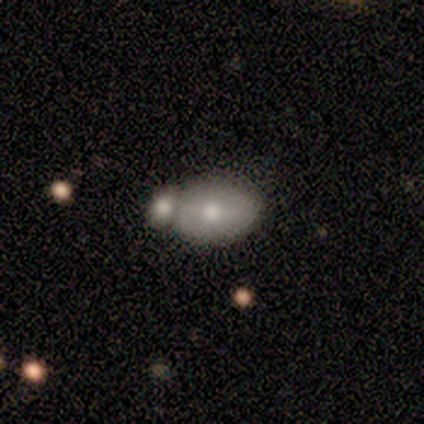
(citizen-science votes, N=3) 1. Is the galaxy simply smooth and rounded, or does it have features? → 100% smooth, 0% featured or disk, 0% star or artifact.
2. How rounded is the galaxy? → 67% in between, 33% round, 0% cigar-shaped.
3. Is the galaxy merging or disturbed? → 100% none, 0% minor disturbance, 0% major disturbance, 0% merger.